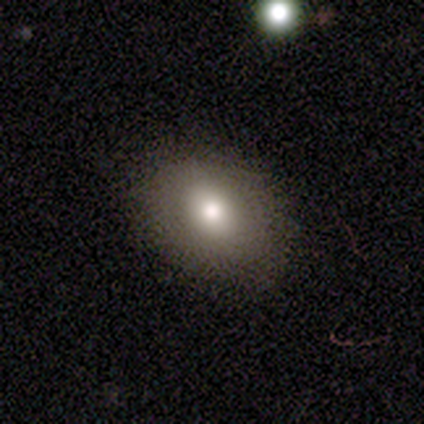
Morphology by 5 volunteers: Volunteers were most divided on "smooth or featured": featured or disk: 60%, smooth: 40%, star or artifact: 0%. More confident: edge-on disk — no (100%); spiral arms — no (100%); merging — none (80%); bar — no (67%); bulge size — moderate (67%).